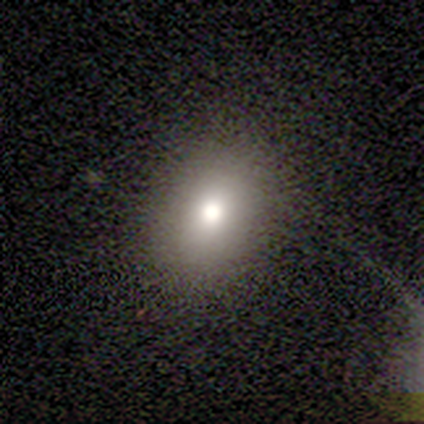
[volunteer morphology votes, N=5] A smooth galaxy with no disk features (80%) that is round (50%, tied with in between).

Vote fractions:
- Smooth or featured? smooth: 80% / star or artifact: 20% / featured or disk: 0%
- How rounded? round: 50% (tied) / in between: 50% (tied) / cigar-shaped: 0%
- Merging? minor disturbance: 50% / none: 25% / major disturbance: 25% / merger: 0%